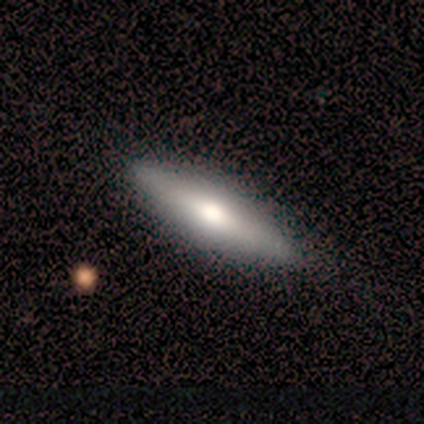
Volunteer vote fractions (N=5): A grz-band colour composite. It shows a smooth galaxy with no disk features (80%) that is cigar-shaped (100%). Merging: none (100%).